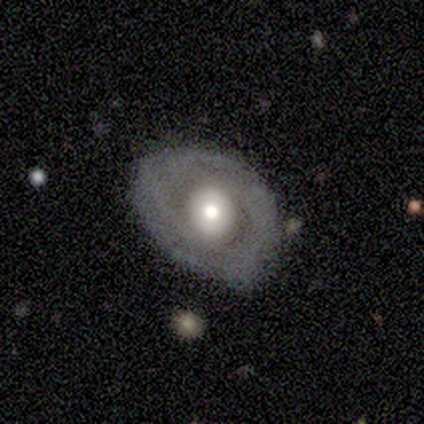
This appears to be a featured or disk galaxy (80%) with no bar (50%), 2 (50%, tied with can't tell) tight (100%) spiral arms (50%, tied with no) and a moderate central bulge (100%). Merging: none (100%).